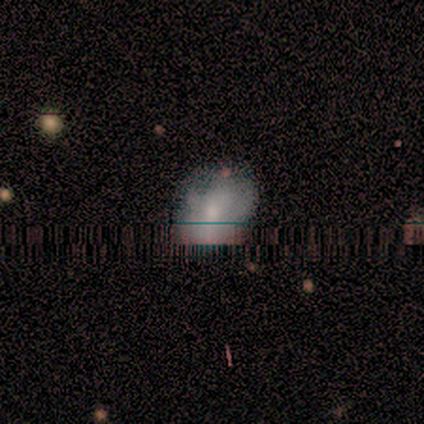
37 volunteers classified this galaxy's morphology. smooth 51%, star or artifact 32%, featured or disk 16%. Down the decision tree: how rounded — in between (58%); merging — none (56%).